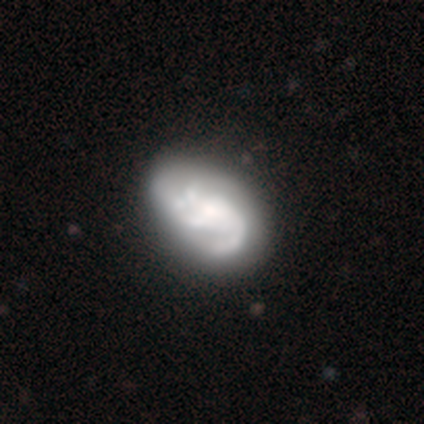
Smooth or featured: featured or disk — 88% (smooth — 12%)
Edge-on disk: no — 97% (yes — 3%)
Bar: no — 65% (weak — 24%)
Spiral arms: yes — 94% (no — 6%)
Spiral winding: medium — 53% (loose — 34%)
Spiral arm count: 3 — 53% (2 — 22%)
Bulge size: moderate — 35% (small — 21%)
Merging: none — 42% (major disturbance — 18%)